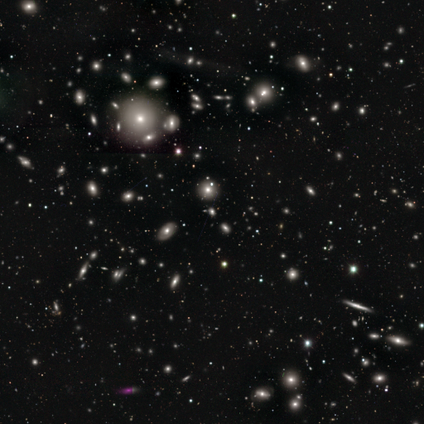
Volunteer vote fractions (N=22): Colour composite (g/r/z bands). It shows a smooth galaxy with no disk features (45%, tied with star or artifact) that is in between round and cigar-shaped (60%). Merging: none (92%).